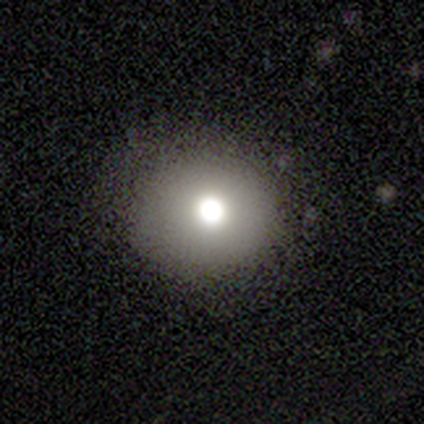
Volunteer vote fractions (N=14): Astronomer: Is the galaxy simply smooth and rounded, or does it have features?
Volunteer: smooth — 57%.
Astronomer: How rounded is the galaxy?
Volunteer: round — 88%.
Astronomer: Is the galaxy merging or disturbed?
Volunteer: none — 92%.